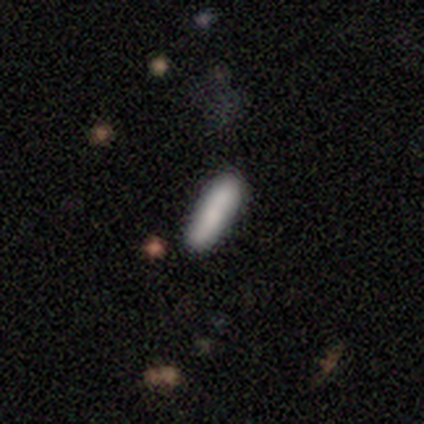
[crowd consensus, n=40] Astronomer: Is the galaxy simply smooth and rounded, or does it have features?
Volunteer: smooth — 90%.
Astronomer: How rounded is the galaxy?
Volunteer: cigar-shaped — 64%.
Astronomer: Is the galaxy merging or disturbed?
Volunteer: none — 92%.